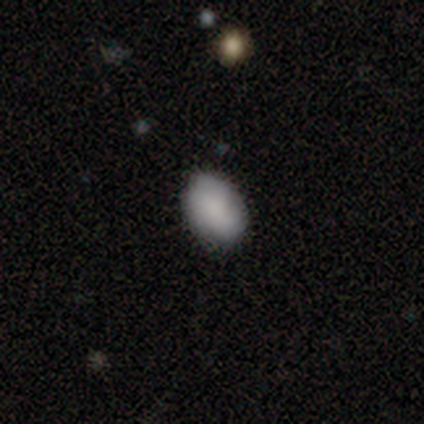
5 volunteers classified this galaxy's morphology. Smooth or featured? smooth (80%)
How rounded? in between (75%)
Merging? none (60%)